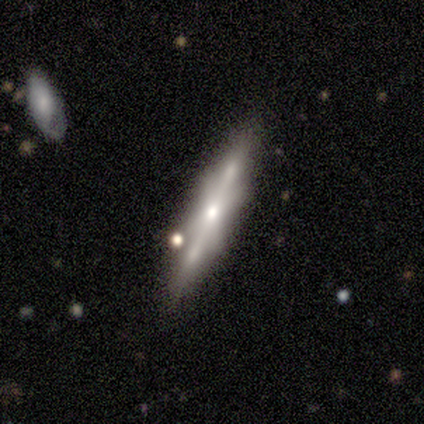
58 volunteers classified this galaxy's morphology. Smooth or featured: featured or disk — 67% (smooth — 28%)
Edge-on disk: yes — 90% (no — 10%)
Edge-on bulge: rounded — 69% (boxy — 31%)
Merging: none — 80% (merger — 11%)